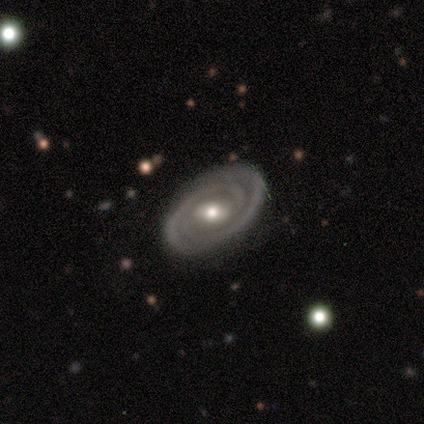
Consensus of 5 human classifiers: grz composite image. It shows a featured or disk galaxy (80%) with a weak bar (75%), 2 (100%) tight (50%, tied with medium) spiral arms (100%) and a moderate central bulge (75%). Merging: none (80%).